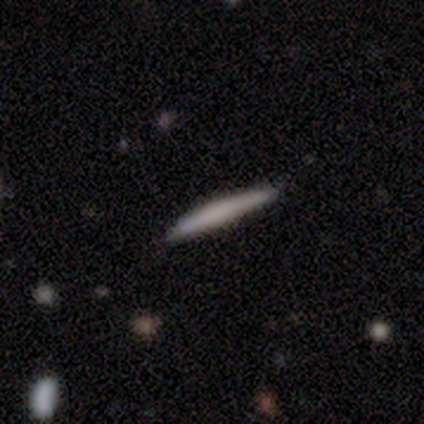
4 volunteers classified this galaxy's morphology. Smooth or featured: smooth — 100%
How rounded: cigar-shaped — 100%
Merging: none — 75% (minor disturbance — 25%)